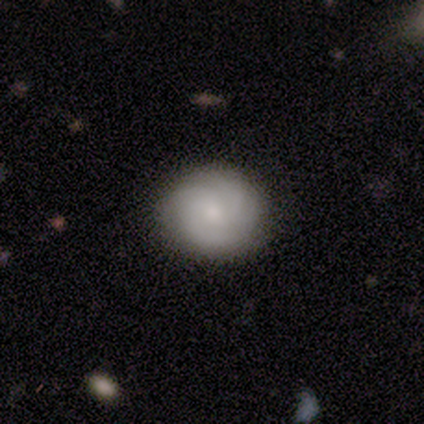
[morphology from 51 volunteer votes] type=featured or disk (57%); edge-on=no (97%); bar=no (93%); spiral arms=yes (96%); winding=tight (59%); arm count=can't tell (41%); bulge=small (54%); merging=none (84%).